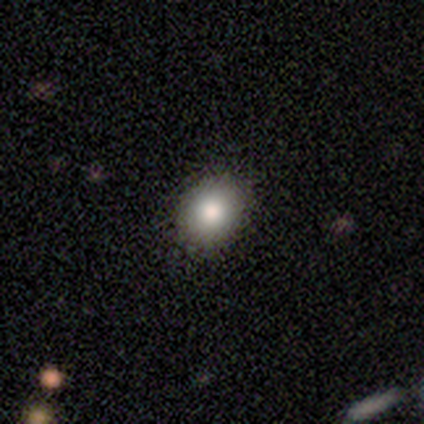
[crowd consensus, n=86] Q: Smooth or featured?
A: smooth (90%); runner-up: featured or disk (7%)
Q: How rounded?
A: round (64%); runner-up: in between (36%)
Q: Merging?
A: none (87%); runner-up: minor disturbance (8%)